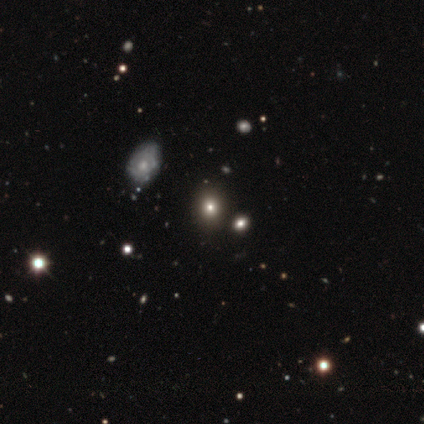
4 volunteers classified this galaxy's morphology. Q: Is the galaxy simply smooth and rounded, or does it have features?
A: smooth — 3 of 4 (75%).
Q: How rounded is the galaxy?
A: round — 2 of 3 (67%).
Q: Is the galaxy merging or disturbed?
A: none — 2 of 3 (67%).